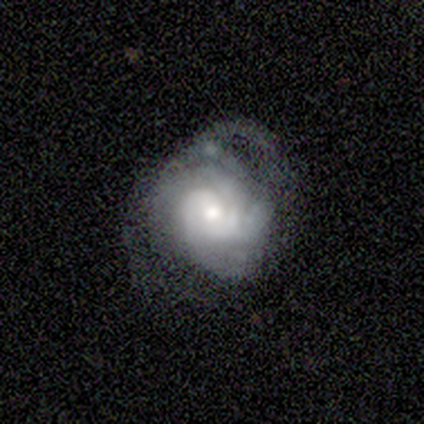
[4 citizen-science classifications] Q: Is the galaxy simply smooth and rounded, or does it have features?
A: featured or disk — 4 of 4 (100%).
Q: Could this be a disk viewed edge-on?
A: no — 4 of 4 (100%).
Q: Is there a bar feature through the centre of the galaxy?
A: weak — 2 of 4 (50%, tied with no).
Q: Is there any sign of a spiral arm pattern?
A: yes — 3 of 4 (75%).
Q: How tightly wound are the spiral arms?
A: tight — 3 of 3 (100%).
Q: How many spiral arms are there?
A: can't tell — 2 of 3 (67%).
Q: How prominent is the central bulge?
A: moderate — 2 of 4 (50%).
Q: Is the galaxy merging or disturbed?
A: major disturbance — 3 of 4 (75%).